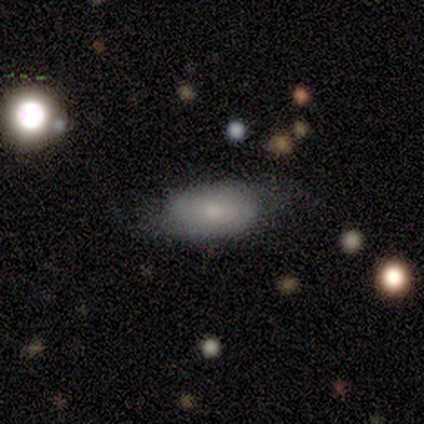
smooth 78%, featured or disk 22%, star or artifact 0%. Down the decision tree: how rounded — in between (100%); merging — none (67%).